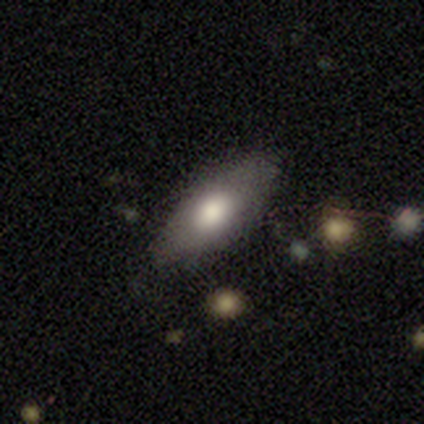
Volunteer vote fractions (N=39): Overall: smooth (77%). How rounded: in between (77%). Merging: none (77%).